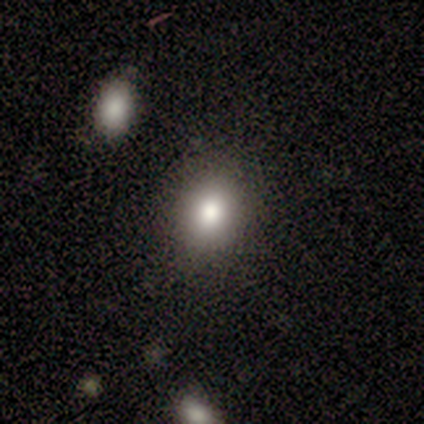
smooth_or_featured: smooth (p=0.80) [alt: star or artifact p=0.20]
how_rounded: round (p=0.50) [tied with: in between p=0.50]
merging: none (p=1.00)